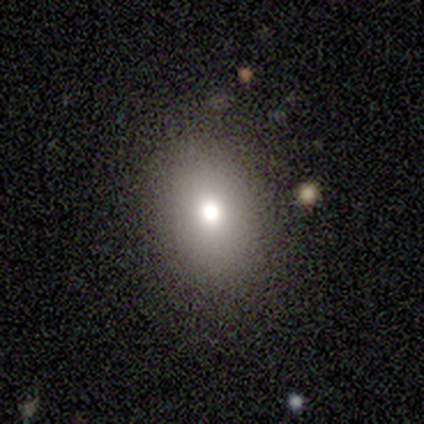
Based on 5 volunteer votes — smooth-or-featured: smooth: 80% | featured or disk: 20% | star or artifact: 0%
  how-rounded: in between: 75% | round: 25% | cigar-shaped: 0%
  merging: none: 80% | minor disturbance: 20% | major disturbance: 0% | merger: 0%